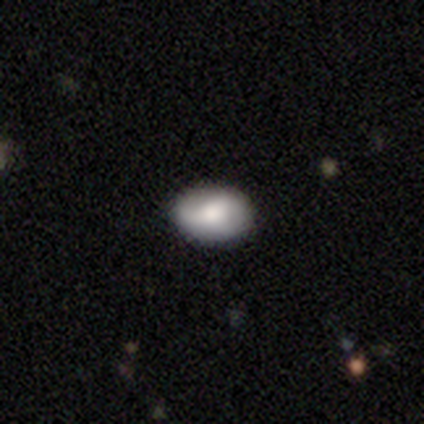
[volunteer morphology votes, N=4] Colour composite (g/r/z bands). It shows a featured or disk galaxy (75%) with a strong bar (67%), no spiral arms (67%) and a moderate central bulge (67%). Merging: none (100%).